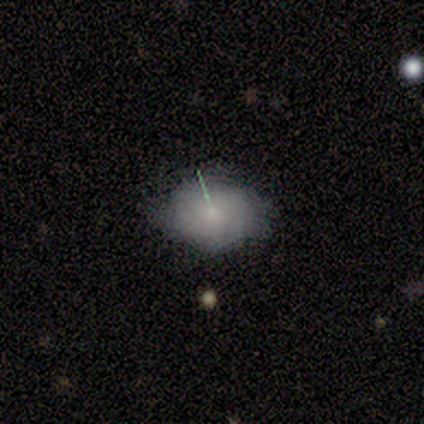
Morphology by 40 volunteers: Overall: smooth (57%; star or artifact 22%). How rounded: in between (52%; round 48%). Merging: none (81%).